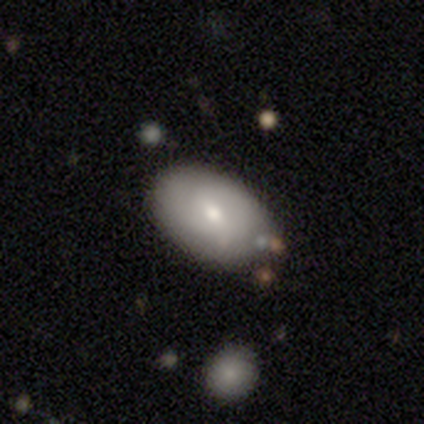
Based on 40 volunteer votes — Morphology: type=smooth (68%); roundness=in between (93%); merging=none (75%).